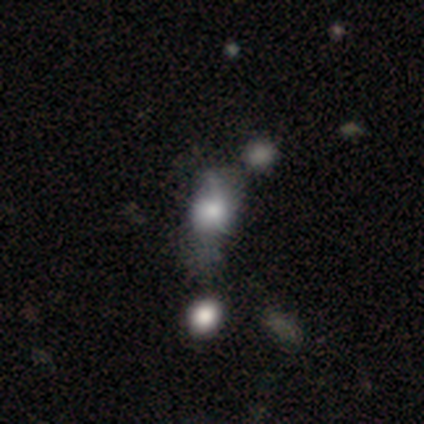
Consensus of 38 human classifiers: smooth 63%, featured or disk 18%, star or artifact 18%. Down the decision tree: how rounded — in between (67%); merging — none (35%).